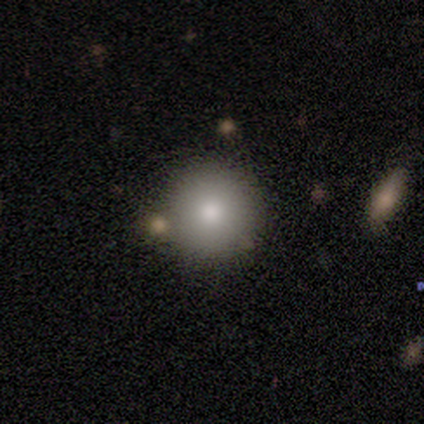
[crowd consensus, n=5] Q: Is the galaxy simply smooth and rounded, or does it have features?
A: smooth — 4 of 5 (80%).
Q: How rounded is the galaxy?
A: round — 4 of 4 (100%).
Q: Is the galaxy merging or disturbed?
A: none — 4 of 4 (100%).